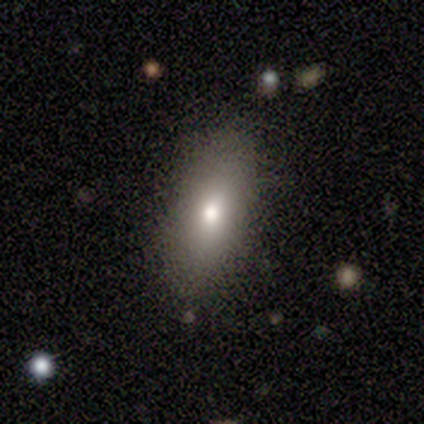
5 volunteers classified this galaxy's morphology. smooth-or-featured: smooth: 80% | featured or disk: 20% | star or artifact: 0%
  how-rounded: in between: 50% (tied) | cigar-shaped: 50% (tied) | round: 0%
  merging: none: 60% | minor disturbance: 20% | major disturbance: 20% | merger: 0%